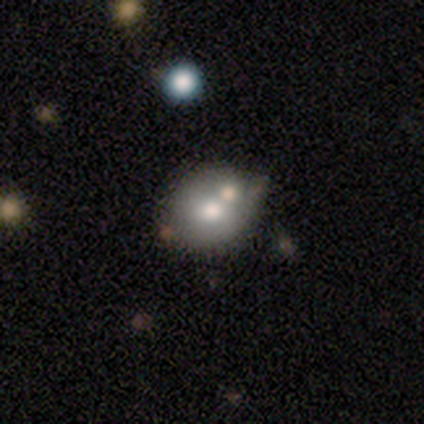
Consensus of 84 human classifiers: Q: Smooth or featured?
A: smooth (63%); runner-up: featured or disk (30%)
Q: How rounded?
A: round (64%); runner-up: in between (36%)
Q: Merging?
A: none (51%); runner-up: minor disturbance (23%)